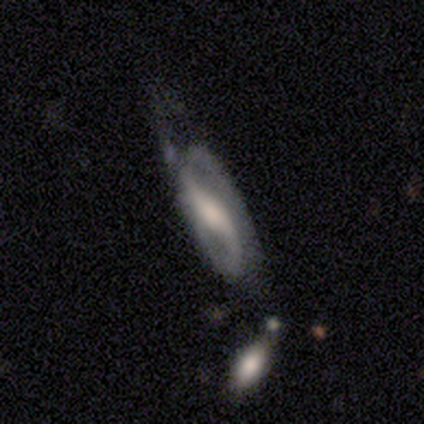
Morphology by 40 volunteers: Overall: featured or disk (85%). Edge-on disk: no (85%). Bar: strong (48%; no 28%). Spiral arms: yes (90%). Spiral arm count: 2 (85%). Spiral winding: loose (46%; medium 42%). Bulge size: large (38%; none 24%). Merging: none (44%; major disturbance 26%).